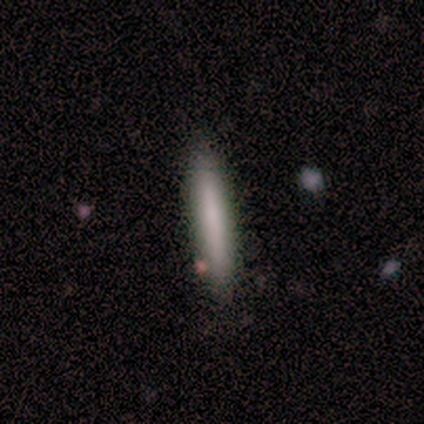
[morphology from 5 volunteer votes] smooth 100%, featured or disk 0%, star or artifact 0%. Down the decision tree: how rounded — cigar-shaped (100%); merging — none (80%).